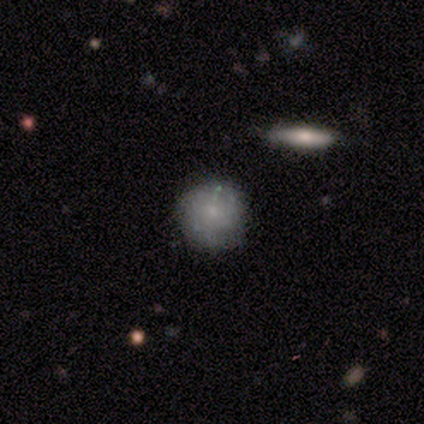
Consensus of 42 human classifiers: Volunteers were most divided on "smooth or featured": smooth: 60%, featured or disk: 36%, star or artifact: 5%. More confident: how rounded — round (88%); merging — none (72%).